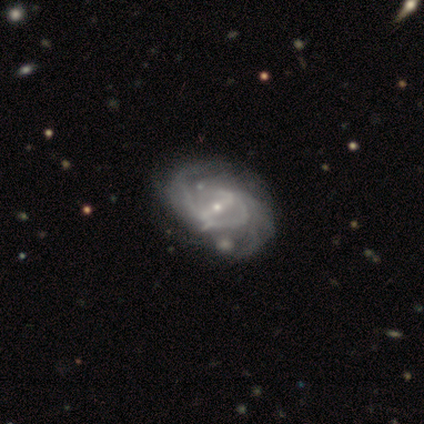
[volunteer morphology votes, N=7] A featured or disk galaxy (100%) with a strong bar (43%, tied with weak), tight (57%) spiral arms (100%) and a small central bulge (86%). Merging: none (43%).